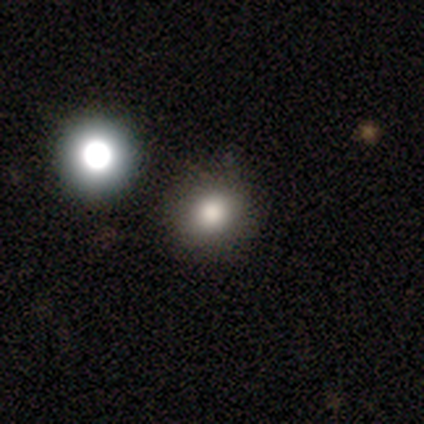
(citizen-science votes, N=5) Q: Smooth or featured?
A: smooth (80%); runner-up: star or artifact (20%)
Q: How rounded?
A: round (100%)
Q: Merging?
A: none (75%); runner-up: merger (25%)